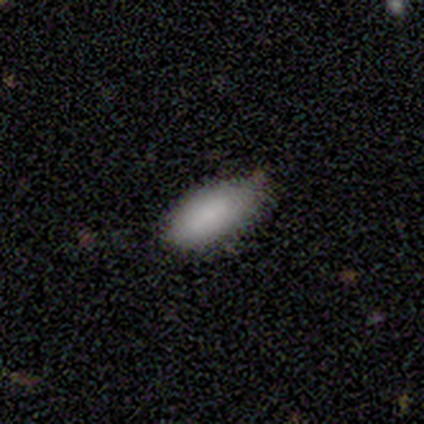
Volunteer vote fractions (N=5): smooth 100%, featured or disk 0%, star or artifact 0%. Down the decision tree: how rounded — in between (100%); merging — none (60%).